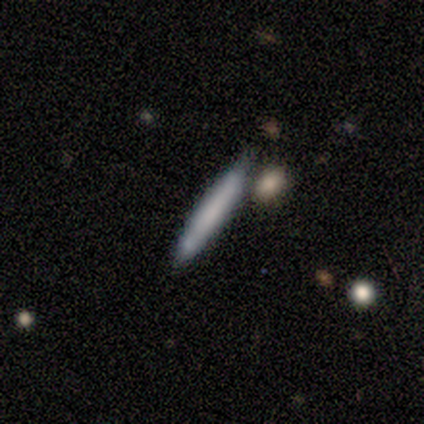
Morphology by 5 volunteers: smooth_or_featured: smooth (p=0.80) [alt: featured or disk p=0.20]
how_rounded: cigar-shaped (p=0.75) [alt: in between p=0.25]
merging: none (p=0.80) [alt: major disturbance p=0.20]